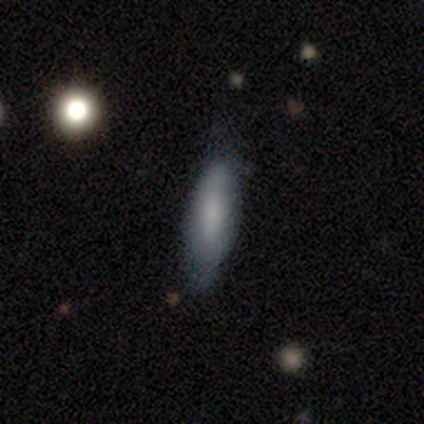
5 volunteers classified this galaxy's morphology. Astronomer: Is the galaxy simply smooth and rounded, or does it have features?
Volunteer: smooth — 100%.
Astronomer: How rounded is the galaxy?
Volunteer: cigar-shaped — 60% (runner-up: in between, 40%).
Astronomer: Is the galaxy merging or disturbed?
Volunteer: none — 80%.